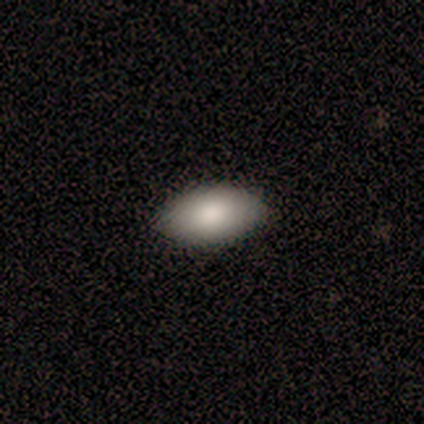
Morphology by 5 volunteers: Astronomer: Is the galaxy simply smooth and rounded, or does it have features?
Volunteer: smooth — 80%.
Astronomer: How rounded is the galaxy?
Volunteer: in between — 100%.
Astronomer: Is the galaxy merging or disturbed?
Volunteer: none — 80%.